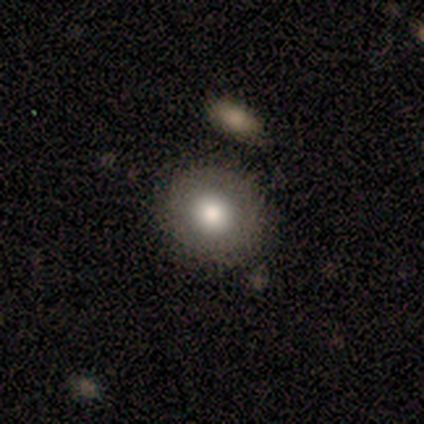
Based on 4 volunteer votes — smooth_or_featured: smooth (p=1.00)
how_rounded: round (p=0.75) [alt: in between p=0.25]
merging: none (p=1.00)